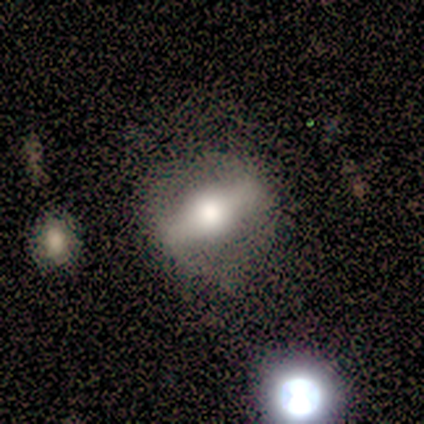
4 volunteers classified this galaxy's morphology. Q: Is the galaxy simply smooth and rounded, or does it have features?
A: featured or disk — 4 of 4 (100%).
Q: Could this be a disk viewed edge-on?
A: yes — 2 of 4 (50%, tied with no).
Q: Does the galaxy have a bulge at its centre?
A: rounded — 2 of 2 (100%).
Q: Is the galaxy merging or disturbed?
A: none — 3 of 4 (75%).